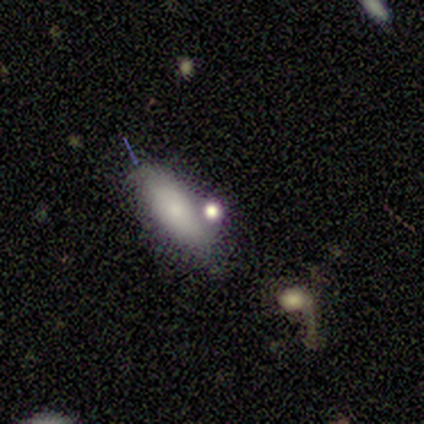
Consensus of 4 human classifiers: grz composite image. It shows a smooth galaxy with no disk features (75%) that is round (33%, tied with in between and cigar-shaped). Merging: none (67%).